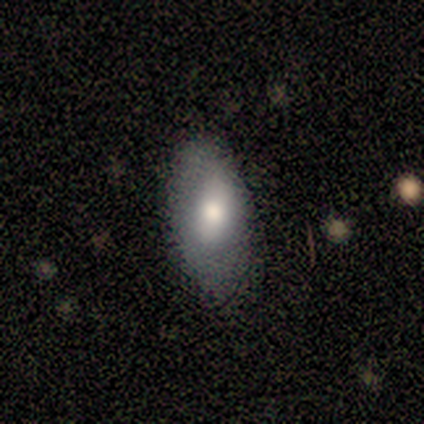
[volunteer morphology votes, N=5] Q: Smooth or featured?
A: smooth (60%); runner-up: featured or disk (40%)
Q: How rounded?
A: in between (100%)
Q: Merging?
A: none (80%); runner-up: minor disturbance (20%)